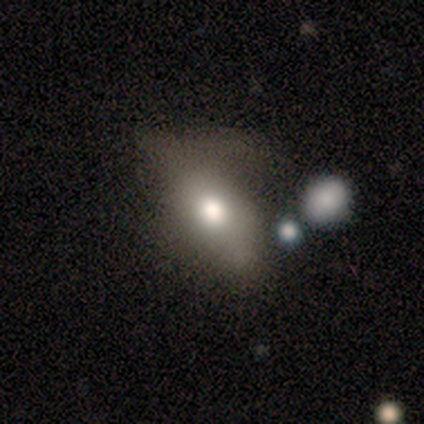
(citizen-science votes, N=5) This appears to be a featured or disk galaxy (60%) with a weak bar (50%, tied with no), no spiral arms (100%) and a moderate central bulge (50%, tied with small). Merging: major disturbance (80%).